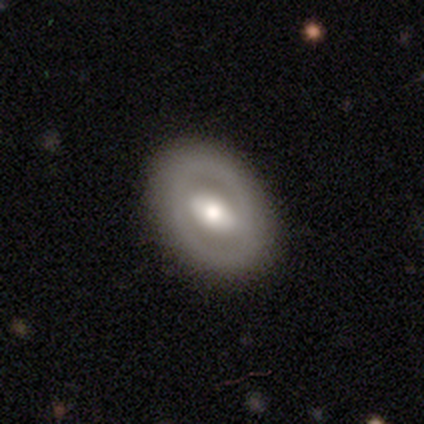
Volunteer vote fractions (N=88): Smooth or featured? featured or disk (59%)
Edge-on disk? no (94%)
Bar? strong (57%)
Spiral arms? no (73%)
Bulge size? moderate (69%)
Merging? none (87%)